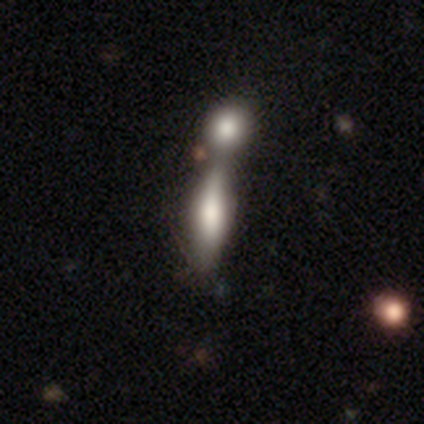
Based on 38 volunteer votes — Morphology: type=smooth (79%); roundness=cigar-shaped (67%); merging=merger (74%).